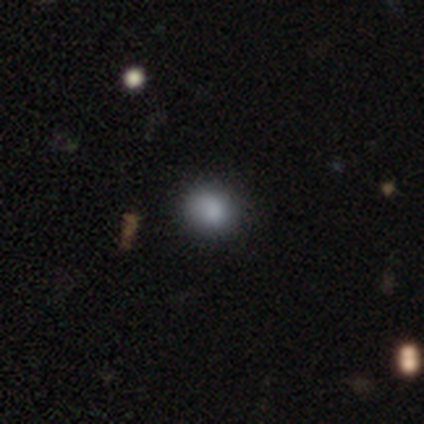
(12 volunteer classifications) Smooth or featured: smooth — 92% (star or artifact — 8%)
How rounded: round — 73% (in between — 27%)
Merging: none — 73% (minor disturbance — 18%)